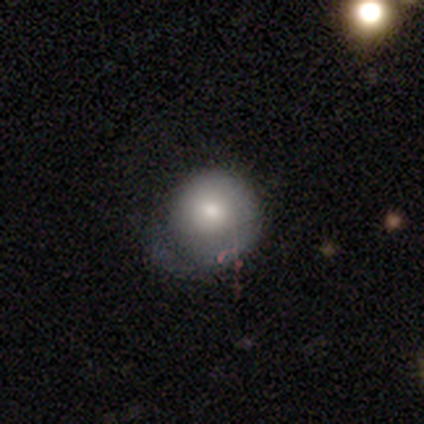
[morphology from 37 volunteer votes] Overall: smooth (68%; featured or disk 32%). How rounded: round (92%). Merging: none (51%; minor disturbance 30%).